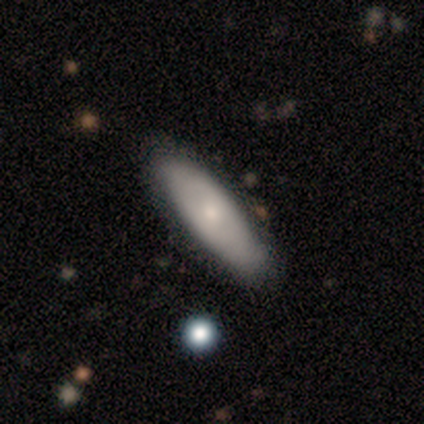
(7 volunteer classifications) Smooth or featured?
  - smooth: 57% *
  - featured or disk: 43%
  - star or artifact: 0%
How rounded?
  - cigar-shaped: 100% *
  - round: 0%
  - in between: 0%
Merging?
  - none: 86% *
  - merger: 14%
  - minor disturbance: 0%
  - major disturbance: 0%